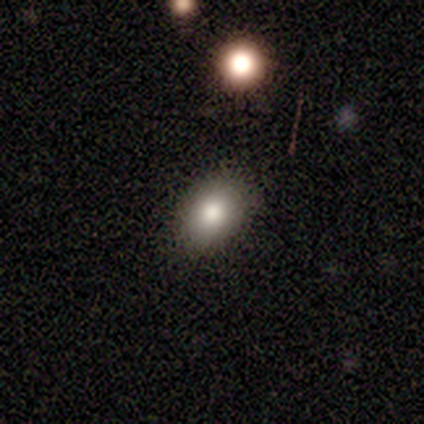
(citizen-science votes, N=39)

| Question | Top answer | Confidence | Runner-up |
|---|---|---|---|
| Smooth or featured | smooth | 77% | featured or disk (13%) |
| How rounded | in between | 83% | round (17%) |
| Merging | none | 91% | minor disturbance (3%) |